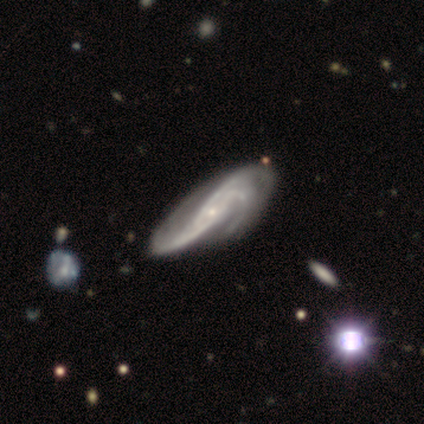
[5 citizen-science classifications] Morphology: type=featured or disk (80%); edge-on=no (75%); bar=no (67%); spiral arms=yes (100%); winding=medium (67%); arm count=2 (33%, tied with 3 and can't tell); bulge=small (100%); merging=none (50%).